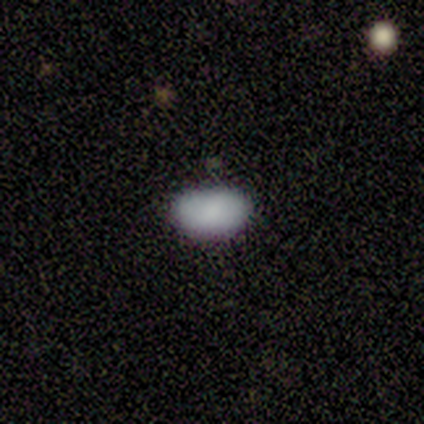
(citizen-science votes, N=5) This appears to be a smooth galaxy with no disk features (100%) that is in between round and cigar-shaped (100%). Merging: none (60%).